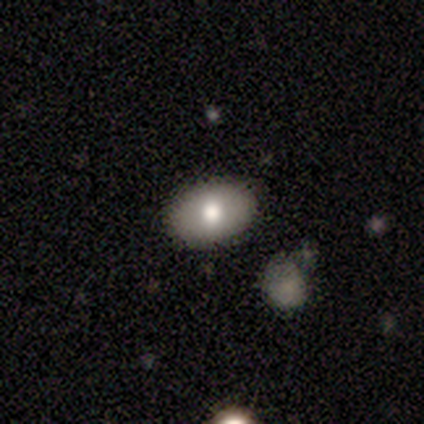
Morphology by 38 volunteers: Smooth or featured? smooth (66%)
How rounded? in between (92%)
Merging? none (91%)